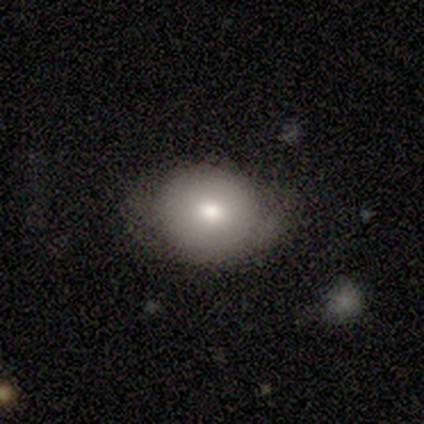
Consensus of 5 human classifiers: Morphology: type=smooth (100%); roundness=round (60%); merging=none (100%).